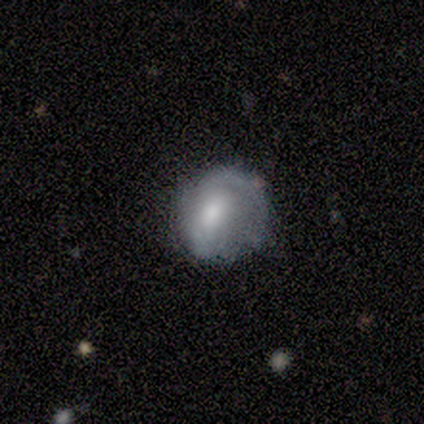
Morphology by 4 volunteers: A smooth galaxy with no disk features (100%) that is round (100%). Merging: none (75%).